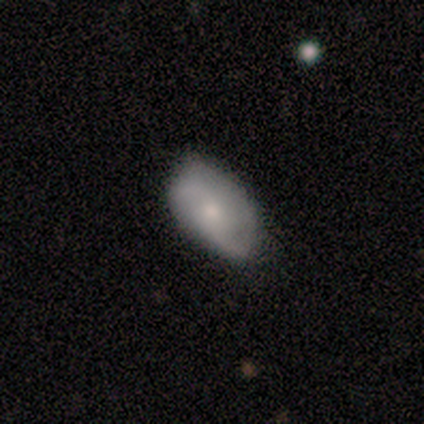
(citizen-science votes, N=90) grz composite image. It shows a smooth galaxy with no disk features (57%) that is in between round and cigar-shaped (88%). Merging: none (67%).